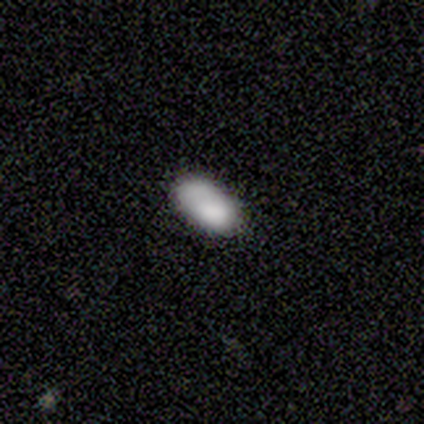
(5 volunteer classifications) Smooth or featured? 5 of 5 (100%) said smooth. How rounded? 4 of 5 (80%) said in between. Merging? 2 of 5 (40%, tied with minor disturbance) said none.